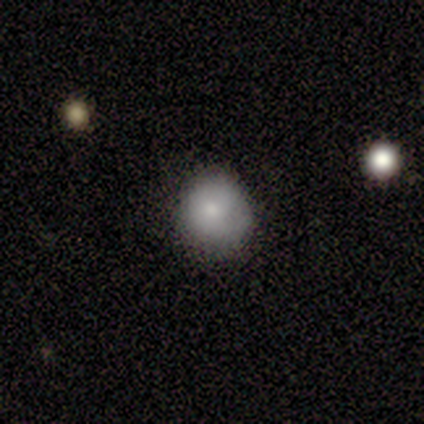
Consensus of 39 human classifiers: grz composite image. It shows a smooth galaxy with no disk features (82%) that is round (88%). Merging: none (76%).